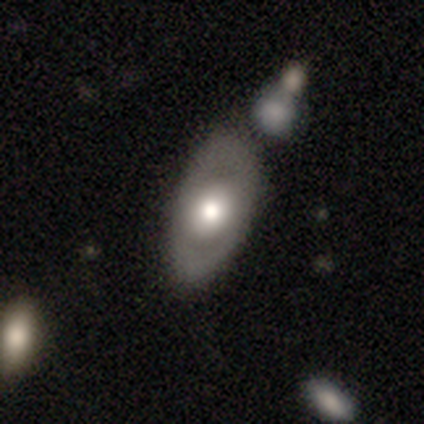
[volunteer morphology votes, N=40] smooth 50%, featured or disk 48%, star or artifact 2%. Down the decision tree: how rounded — in between (90%); merging — none (67%).